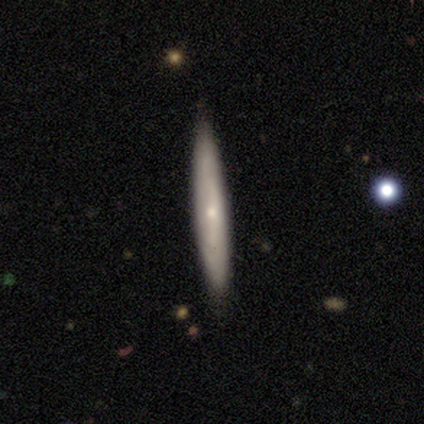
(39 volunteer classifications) Smooth or featured? 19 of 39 (49%) said smooth. How rounded? 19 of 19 (100%) said cigar-shaped. Merging? 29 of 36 (81%) said none.